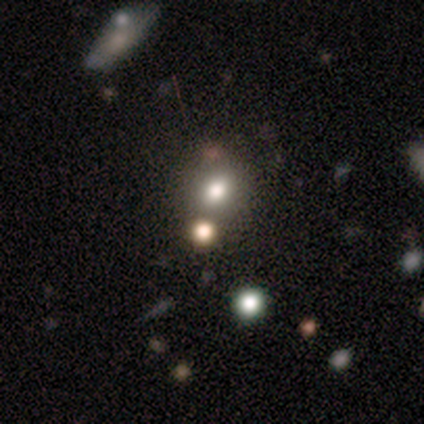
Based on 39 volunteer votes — Smooth or featured?
  - smooth: 64% *
  - star or artifact: 26%
  - featured or disk: 10%
How rounded?
  - round: 80% *
  - in between: 20%
  - cigar-shaped: 0%
Merging?
  - none: 76% *
  - merger: 14%
  - minor disturbance: 7%
  - major disturbance: 3%